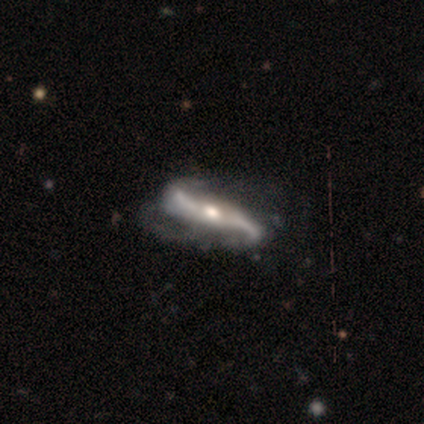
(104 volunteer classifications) Q: Smooth or featured?
A: featured or disk (91%); runner-up: star or artifact (5%)
Q: Edge-on disk?
A: no (77%); runner-up: yes (23%)
Q: Bar?
A: strong (45%); runner-up: no (32%)
Q: Spiral arms?
A: yes (97%); runner-up: no (3%)
Q: Spiral winding?
A: loose (77%); runner-up: medium (14%)
Q: Spiral arm count?
A: 2 (97%); runner-up: 3 (1%)
Q: Bulge size?
A: moderate (67%); runner-up: small (16%)
Q: Merging?
A: none (45%); runner-up: minor disturbance (26%)